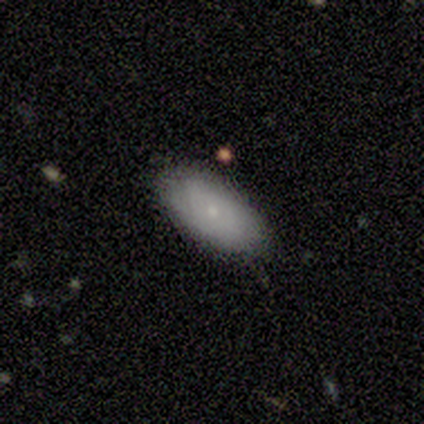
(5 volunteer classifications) This is clearly a smooth galaxy (80%). How rounded: clearly in between (100%). Merging: likely none (60%).